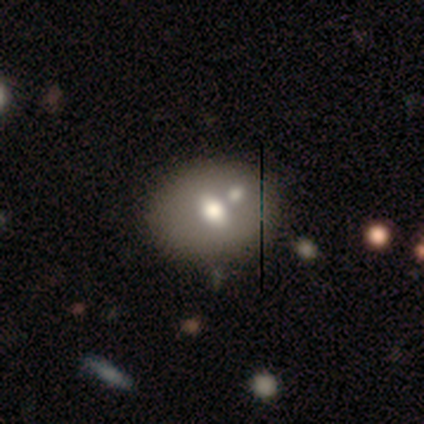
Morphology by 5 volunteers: Smooth or featured? smooth (40%, tied with featured or disk)
How rounded? in between (100%)
Merging? none (50%)